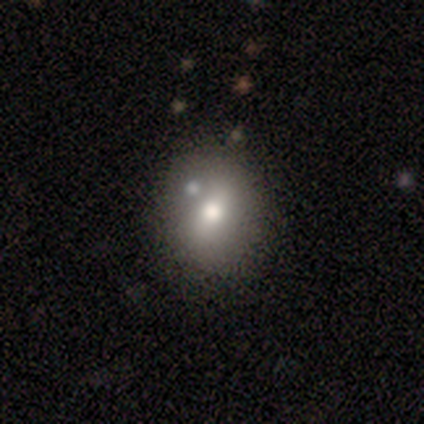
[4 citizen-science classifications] This appears to be a smooth galaxy with no disk features (50%, tied with featured or disk) that is in between round and cigar-shaped (100%). Merging: none (50%, tied with merger).